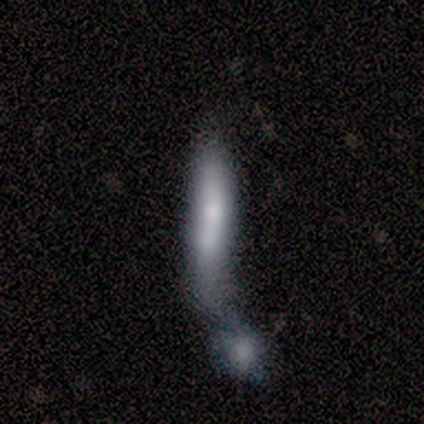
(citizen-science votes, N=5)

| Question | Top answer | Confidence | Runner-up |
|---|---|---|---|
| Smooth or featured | featured or disk | 60% | smooth (40%) |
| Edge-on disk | no | 67% | yes (33%) |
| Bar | weak | 50% | tied: no (50%) |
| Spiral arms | no | 100% | — |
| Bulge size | moderate | 50% | tied: small (50%) |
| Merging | merger | 60% | minor disturbance (20%) |